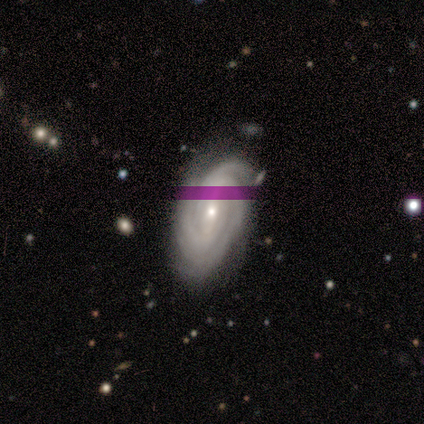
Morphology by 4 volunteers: Smooth or featured?
  - featured or disk: 75% *
  - smooth: 25%
  - star or artifact: 0%
Edge-on disk?
  - no: 100% *
  - yes: 0%
Bar?
  - strong: 67% *
  - weak: 33%
  - no: 0%
Spiral arms?
  - yes: 100% *
  - no: 0%
Spiral winding?
  - tight: 100% *
  - medium: 0%
  - loose: 0%
Spiral arm count?
  - 3: 67% *
  - more than 4: 33%
  - 1: 0%
  - 2: 0%
  - 4: 0%
  - can't tell: 0%
Bulge size?
  - small: 100% *
  - dominant: 0%
  - large: 0%
  - moderate: 0%
  - none: 0%
Merging?
  - minor disturbance: 75% *
  - none: 25%
  - major disturbance: 0%
  - merger: 0%